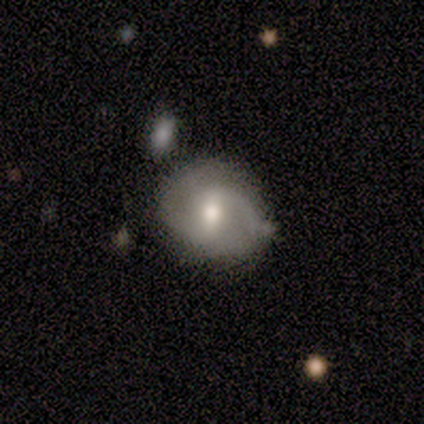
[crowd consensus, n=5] This appears to be a featured or disk galaxy (80%) with a weak bar (75%), 2 (50%) medium (75%) spiral arms (100%) and a moderate central bulge (75%). Merging: none (80%).